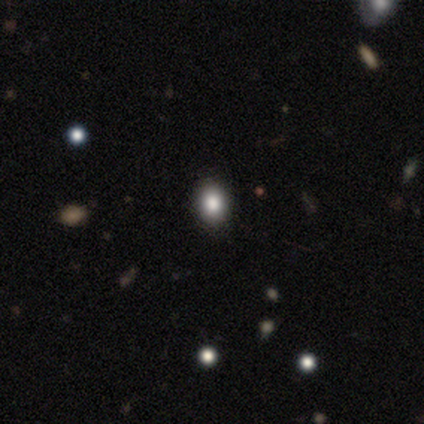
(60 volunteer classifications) Smooth or featured? 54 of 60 (90%) said smooth. How rounded? 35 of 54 (65%) said in between. Merging? 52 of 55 (95%) said none.